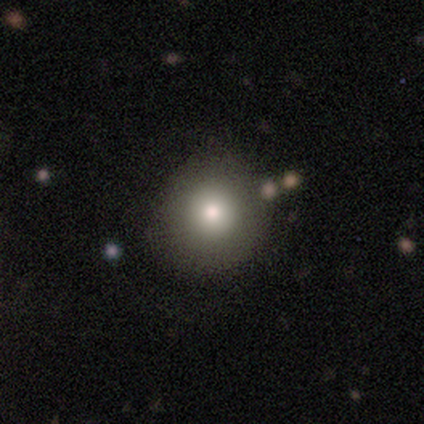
A smooth galaxy with no disk features (80%) that is round (100%).

Vote fractions:
- Smooth or featured? smooth: 80% / star or artifact: 20% / featured or disk: 0%
- How rounded? round: 100% / in between: 0% / cigar-shaped: 0%
- Merging? none: 75% / minor disturbance: 25% / major disturbance: 0% / merger: 0%